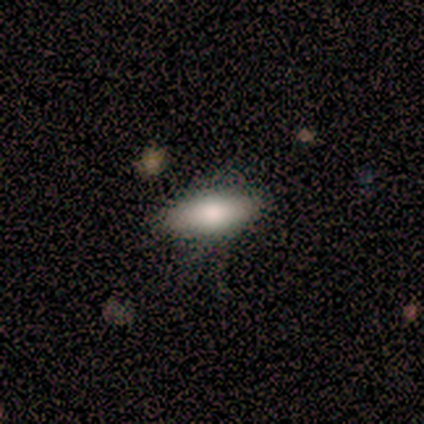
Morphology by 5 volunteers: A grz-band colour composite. It shows a smooth galaxy with no disk features (80%) that is in between round and cigar-shaped (100%). Merging: none (80%).